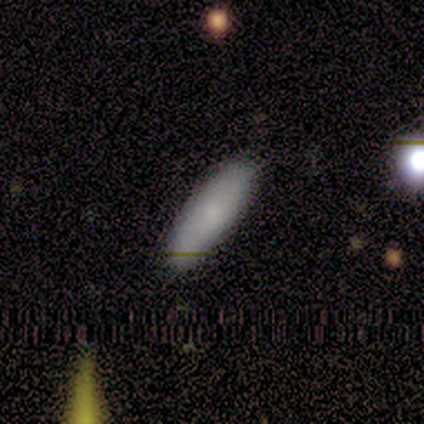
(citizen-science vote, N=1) This is clearly a smooth galaxy (100%). How rounded: clearly in between (100%). Merging: clearly none (100%).